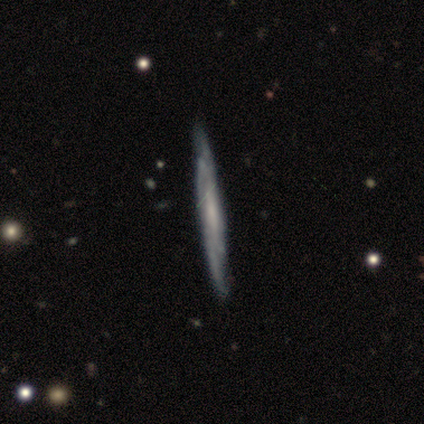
Smooth or featured? featured or disk (86%)
Edge-on disk? yes (77%)
Edge-on bulge? none (75%)
Merging? none (49%)